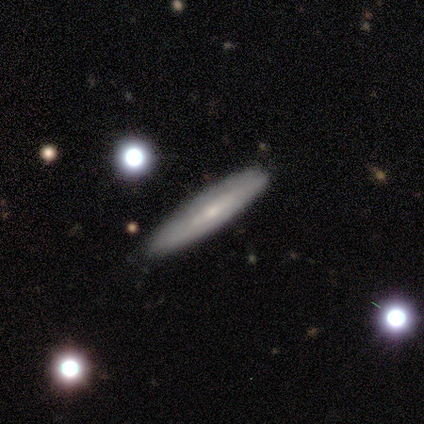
Overall: featured or disk (65%; smooth 33%). Edge-on disk: yes (76%). Edge-on bulge: none (46%; rounded 38%). Merging: none (90%).